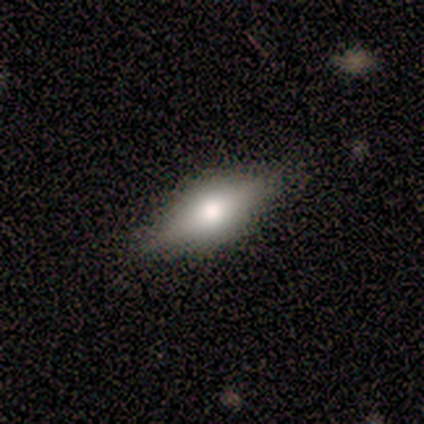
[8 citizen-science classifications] Smooth or featured?
  - smooth: 88% *
  - featured or disk: 12%
  - star or artifact: 0%
How rounded?
  - in between: 71% *
  - cigar-shaped: 29%
  - round: 0%
Merging?
  - none: 88% *
  - minor disturbance: 12%
  - major disturbance: 0%
  - merger: 0%